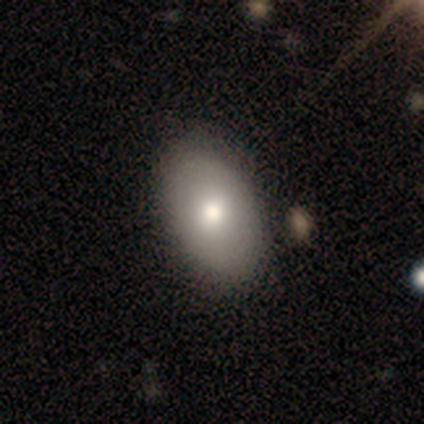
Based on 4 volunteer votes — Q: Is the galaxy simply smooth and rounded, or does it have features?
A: smooth — 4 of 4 (100%).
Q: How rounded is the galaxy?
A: in between — 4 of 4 (100%).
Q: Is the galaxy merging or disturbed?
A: none — 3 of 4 (75%).